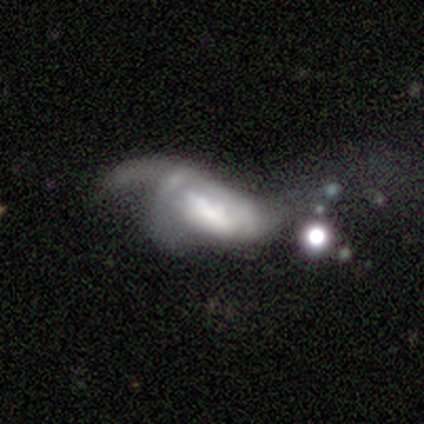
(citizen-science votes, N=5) Morphology: type=smooth (60%); roundness=in between (67%); merging=major disturbance (60%).